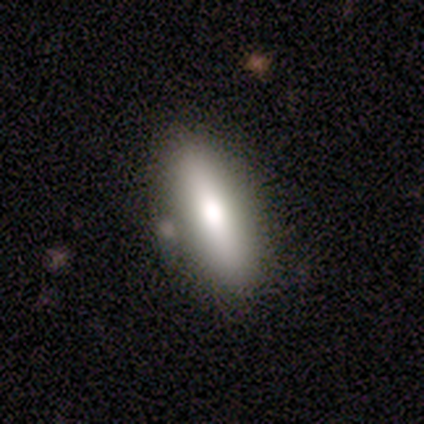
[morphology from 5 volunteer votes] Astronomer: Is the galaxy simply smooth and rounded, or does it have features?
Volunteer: smooth — 60%.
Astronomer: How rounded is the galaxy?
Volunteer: cigar-shaped — 67%.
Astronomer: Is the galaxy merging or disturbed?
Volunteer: none — 100%.